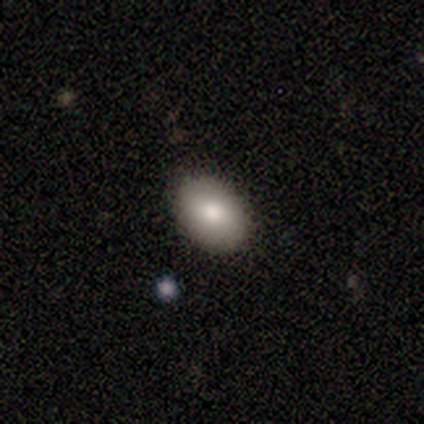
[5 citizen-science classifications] smooth_or_featured: smooth (p=0.80) [alt: featured or disk p=0.20]
how_rounded: in between (p=1.00)
merging: none (p=0.80) [alt: minor disturbance p=0.20]